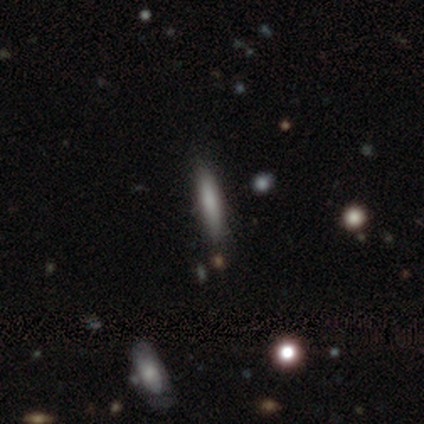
A smooth galaxy with no disk features (80%) that is cigar-shaped (100%).

Vote fractions:
- Smooth or featured? smooth: 80% / featured or disk: 20% / star or artifact: 0%
- How rounded? cigar-shaped: 100% / round: 0% / in between: 0%
- Merging? none: 100% / minor disturbance: 0% / major disturbance: 0% / merger: 0%